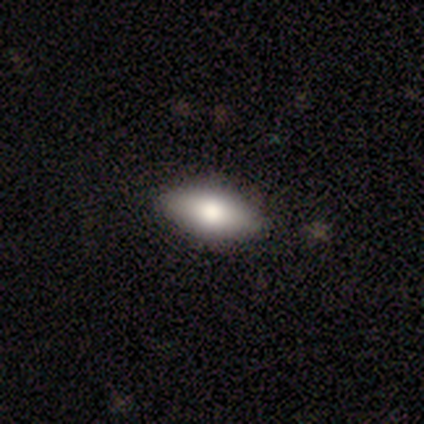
smooth 83%, featured or disk 17%, star or artifact 0%. Down the decision tree: how rounded — in between (100%); merging — none (67%).